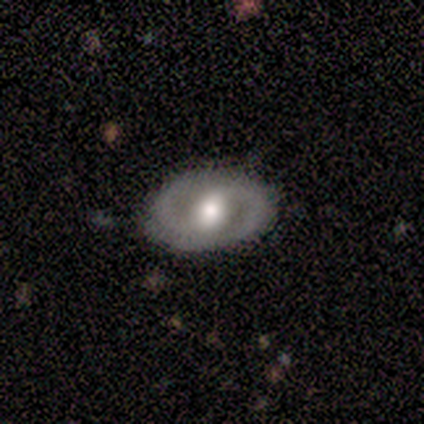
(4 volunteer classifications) Overall: featured or disk (100%). Edge-on disk: no (75%). Bar: weak (100%). Spiral arms: yes (100%). Spiral arm count: 2 (100%). Spiral winding: tight (33%, tied with medium and loose). Bulge size: moderate (67%; large 33%). Merging: none (75%).